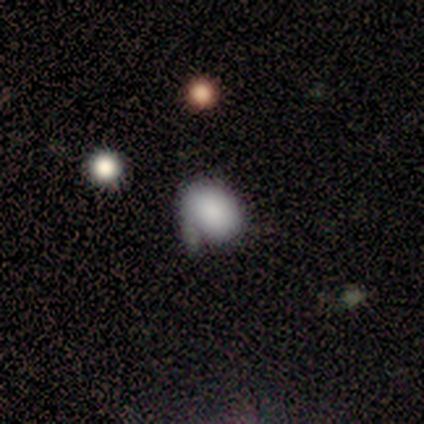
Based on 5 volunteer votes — Overall: smooth (60%; featured or disk 20%). How rounded: in between (67%; round 33%). Merging: none (100%).